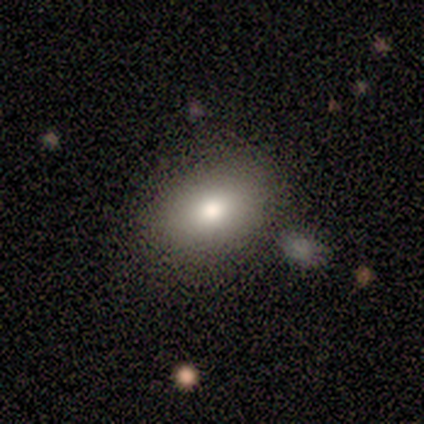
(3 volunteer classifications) Smooth or featured: smooth — 67% (featured or disk — 33%)
How rounded: round — 50% (tied with in between — 50%)
Merging: none — 100%